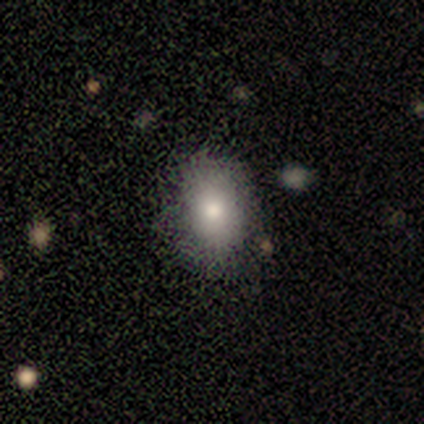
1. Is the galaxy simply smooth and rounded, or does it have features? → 60% smooth, 40% featured or disk, 0% star or artifact.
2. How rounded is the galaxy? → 67% in between, 33% round, 0% cigar-shaped.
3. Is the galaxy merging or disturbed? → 80% none, 20% minor disturbance, 0% major disturbance, 0% merger.